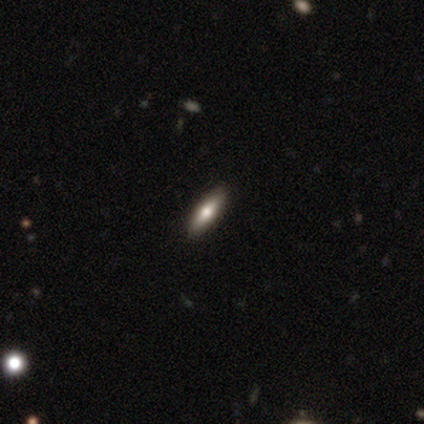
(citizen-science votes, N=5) smooth_or_featured: smooth (p=0.80) [alt: featured or disk p=0.20]
how_rounded: in between (p=0.75) [alt: cigar-shaped p=0.25]
merging: none (p=1.00)